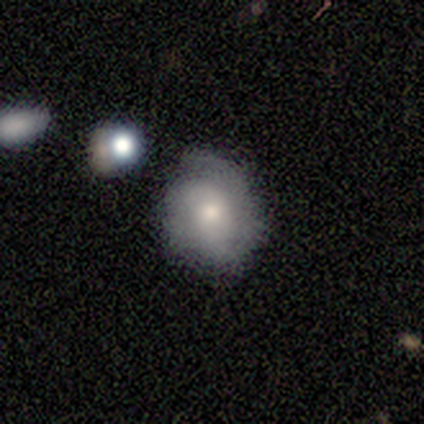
Smooth or featured? smooth (60%)
How rounded? round (100%)
Merging? none (60%)